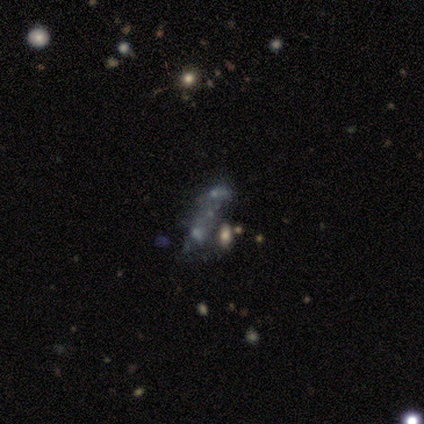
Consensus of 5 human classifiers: Morphology: type=smooth (40%, tied with star or artifact); roundness=in between (100%); merging=merger (67%).